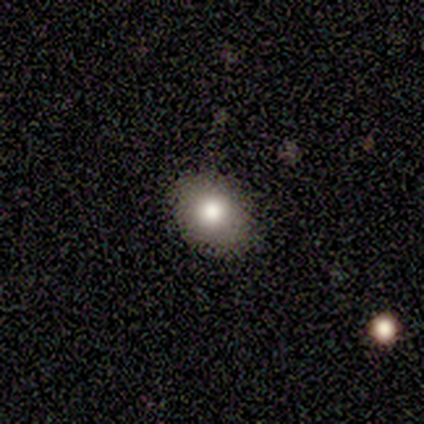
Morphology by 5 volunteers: Q: Smooth or featured?
A: smooth (60%); runner-up: star or artifact (40%)
Q: How rounded?
A: round (100%)
Q: Merging?
A: none (67%); runner-up: major disturbance (33%)